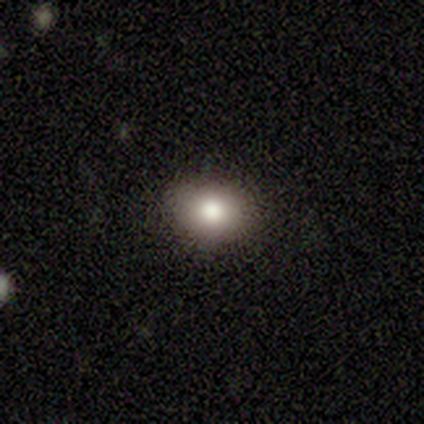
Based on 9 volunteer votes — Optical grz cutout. It shows a smooth galaxy with no disk features (78%) that is round (86%). Merging: none (86%).